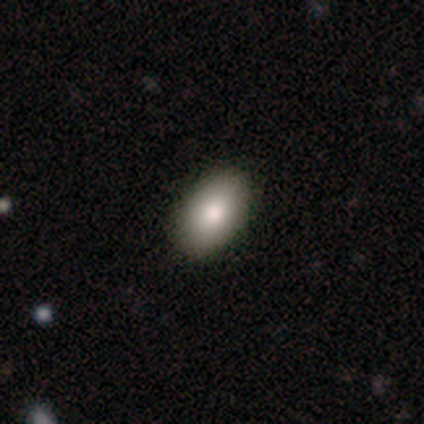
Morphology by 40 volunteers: smooth 92%, featured or disk 8%, star or artifact 0%. Down the decision tree: how rounded — in between (95%); merging — none (55%).